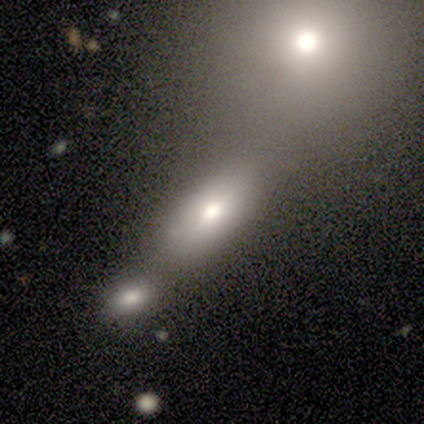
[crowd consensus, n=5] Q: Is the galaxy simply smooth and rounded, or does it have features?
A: smooth — 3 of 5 (60%).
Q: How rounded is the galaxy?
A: in between — 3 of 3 (100%).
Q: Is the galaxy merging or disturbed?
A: none — 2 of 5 (40%, tied with merger).